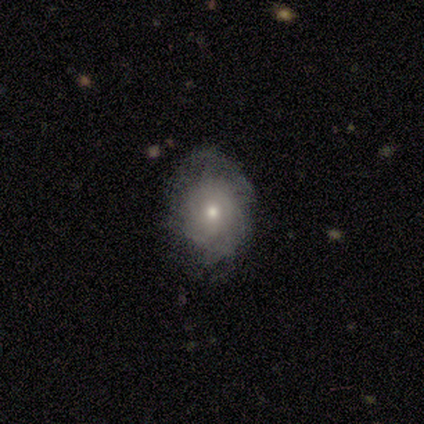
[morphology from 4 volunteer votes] Smooth or featured?
  - featured or disk: 75% *
  - smooth: 25%
  - star or artifact: 0%
Edge-on disk?
  - no: 100% *
  - yes: 0%
Bar?
  - no: 100% *
  - strong: 0%
  - weak: 0%
Spiral arms?
  - yes: 67% *
  - no: 33%
Spiral winding?
  - tight: 100% *
  - medium: 0%
  - loose: 0%
Spiral arm count?
  - can't tell: 100% *
  - 1: 0%
  - 2: 0%
  - 3: 0%
  - 4: 0%
  - more than 4: 0%
Bulge size?
  - small: 67% *
  - moderate: 33%
  - dominant: 0%
  - large: 0%
  - none: 0%
Merging?
  - none: 50% * (tied)
  - minor disturbance: 50% * (tied)
  - major disturbance: 0%
  - merger: 0%